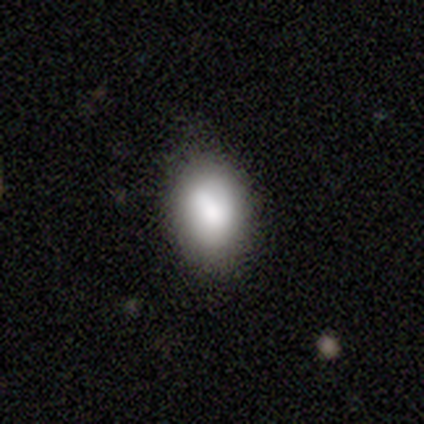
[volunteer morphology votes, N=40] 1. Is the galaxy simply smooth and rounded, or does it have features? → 90% smooth, 5% featured or disk, 5% star or artifact.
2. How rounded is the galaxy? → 81% in between, 19% round, 0% cigar-shaped.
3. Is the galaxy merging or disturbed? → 74% none, 24% minor disturbance, 3% merger, 0% major disturbance.